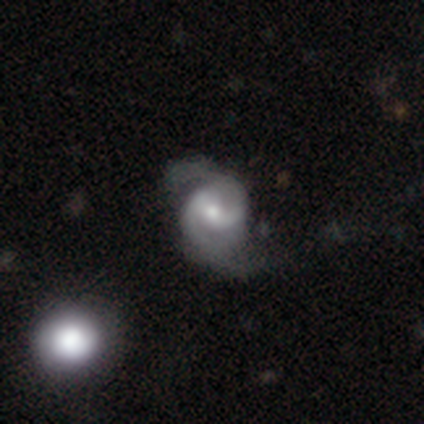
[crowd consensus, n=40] Smooth or featured? 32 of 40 (80%) said featured or disk. Edge-on disk? 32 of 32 (100%) said no. Bar? 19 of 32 (59%) said weak. Spiral arms? 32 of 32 (100%) said yes. Spiral winding? 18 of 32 (56%) said medium. Spiral arm count? 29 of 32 (91%) said 2. Bulge size? 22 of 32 (69%) said moderate. Merging? 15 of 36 (42%) said none.